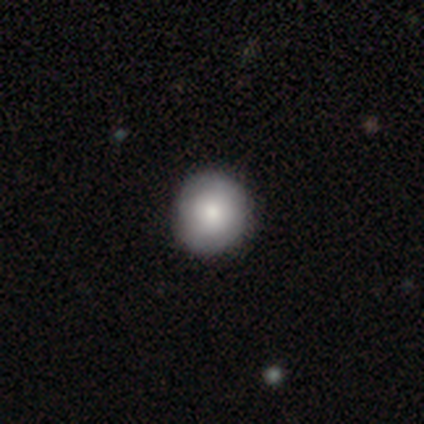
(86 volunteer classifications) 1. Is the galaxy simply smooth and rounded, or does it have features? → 85% smooth, 9% featured or disk, 6% star or artifact.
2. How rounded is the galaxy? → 93% round, 7% in between, 0% cigar-shaped.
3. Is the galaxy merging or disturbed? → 94% none, 6% minor disturbance, 0% major disturbance, 0% merger.